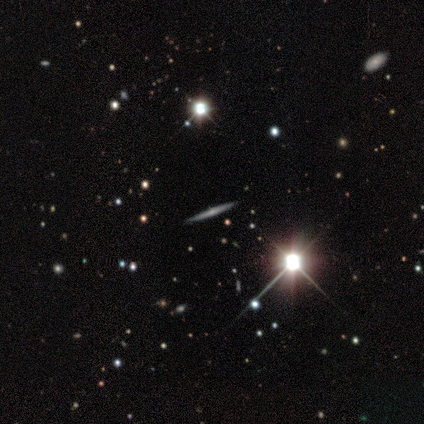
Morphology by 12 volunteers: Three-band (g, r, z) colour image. It shows a featured or disk galaxy (58%) viewed edge-on (100%) with a rounded central bulge (57%). Merging: none (100%).